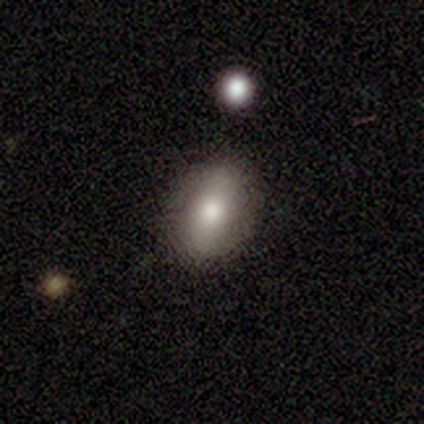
smooth-or-featured: smooth: 60% | featured or disk: 40% | star or artifact: 0%
  how-rounded: in between: 67% | round: 33% | cigar-shaped: 0%
  merging: none: 80% | major disturbance: 20% | minor disturbance: 0% | merger: 0%